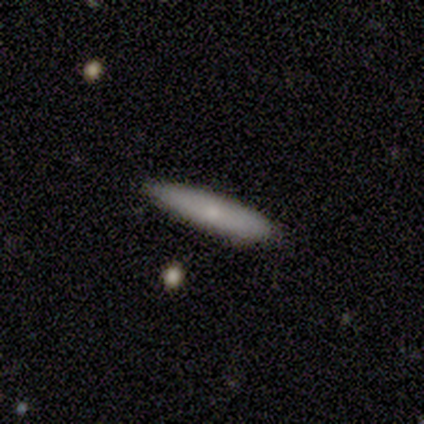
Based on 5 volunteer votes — smooth-or-featured: smooth: 60% | featured or disk: 40% | star or artifact: 0%
  how-rounded: cigar-shaped: 67% | in between: 33% | round: 0%
  merging: none: 100% | minor disturbance: 0% | major disturbance: 0% | merger: 0%